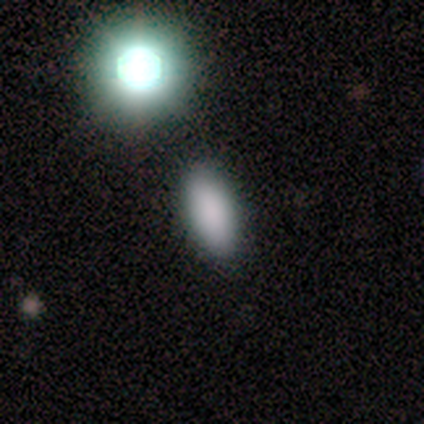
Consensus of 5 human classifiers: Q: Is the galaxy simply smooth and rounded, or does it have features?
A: smooth — 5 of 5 (100%).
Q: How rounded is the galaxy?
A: in between — 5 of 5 (100%).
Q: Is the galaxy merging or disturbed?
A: none — 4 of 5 (80%).